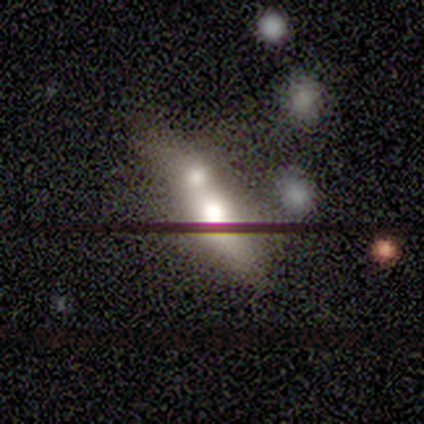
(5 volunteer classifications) Smooth or featured? 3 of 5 (60%) said smooth. How rounded? 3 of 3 (100%) said in between. Merging? 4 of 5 (80%) said merger.